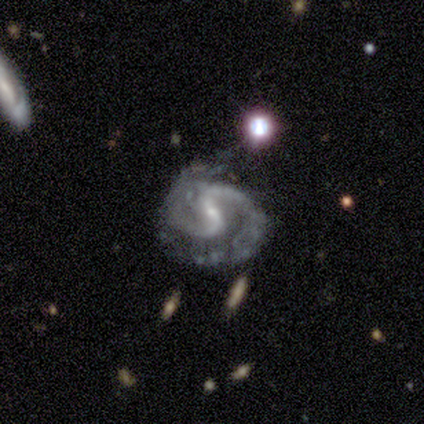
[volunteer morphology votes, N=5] This appears to be a featured or disk galaxy (80%) with a strong bar (75%), 2 (100%) medium (75%) spiral arms (100%) and a small central bulge (100%). Merging: minor disturbance (50%).